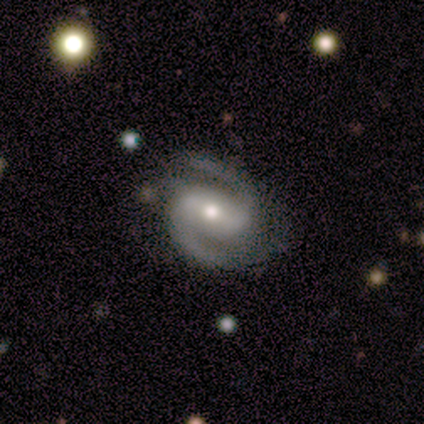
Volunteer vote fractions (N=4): featured or disk 100%, smooth 0%, star or artifact 0%. Down the decision tree: edge-on disk — no (100%); bar — strong (50%); spiral arms — yes (100%); spiral arm count — 2 (100%); spiral winding — medium (75%); bulge size — moderate (100%); merging — none (75%).